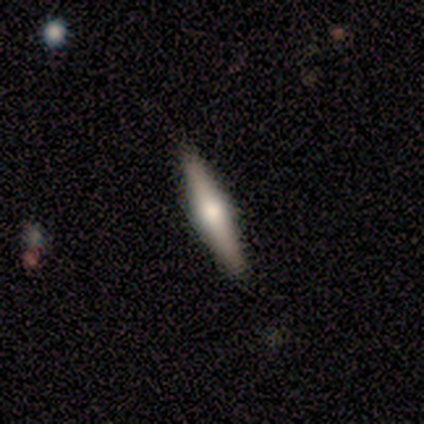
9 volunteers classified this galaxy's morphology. smooth-or-featured: featured or disk: 89% | smooth: 11% | star or artifact: 0%
  disk-edge-on: yes: 100% | no: 0%
    edge-on-bulge: rounded: 100% | boxy: 0% | none: 0%
  merging: none: 100% | minor disturbance: 0% | major disturbance: 0% | merger: 0%